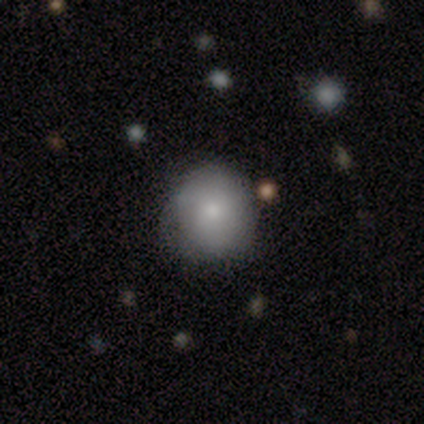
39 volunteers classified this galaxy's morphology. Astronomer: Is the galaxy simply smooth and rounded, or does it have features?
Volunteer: smooth — 74%.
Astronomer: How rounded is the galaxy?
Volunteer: round — 90%.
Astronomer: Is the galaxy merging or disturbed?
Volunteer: none — 71%.